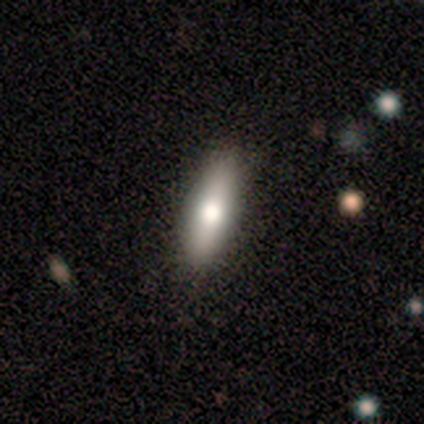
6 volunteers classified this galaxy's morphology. Smooth or featured: smooth — 83% (featured or disk — 17%)
How rounded: cigar-shaped — 80% (in between — 20%)
Merging: none — 100%